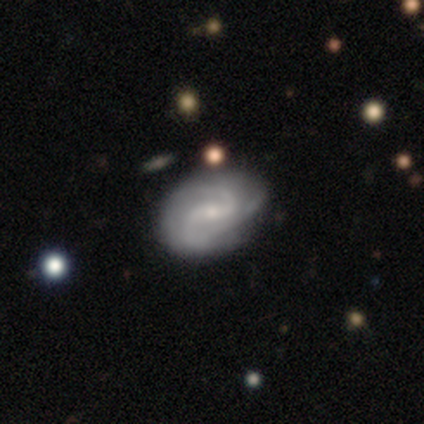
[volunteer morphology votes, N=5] smooth_or_featured: featured or disk (p=1.00)
disk_edge_on: no (p=1.00)
bar: strong (p=0.60) [alt: weak p=0.40]
has_spiral_arms: yes (p=1.00)
spiral_winding: medium (p=0.60) [alt: tight p=0.20]
spiral_arm_count: 2 (p=0.80) [alt: can't tell p=0.20]
bulge_size: small (p=0.60) [alt: moderate p=0.40]
merging: none (p=0.60) [alt: minor disturbance p=0.40]